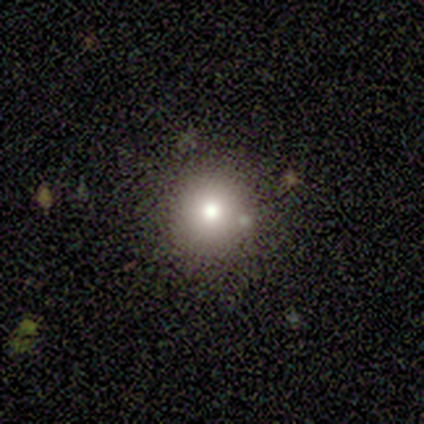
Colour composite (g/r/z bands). It shows a smooth galaxy with no disk features (80%) that is round (100%). Merging: none (80%).